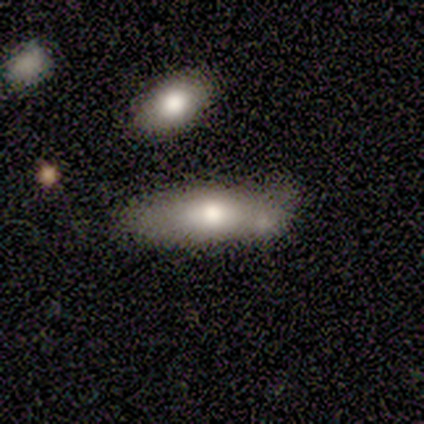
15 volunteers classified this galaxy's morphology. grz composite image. It shows a smooth galaxy with no disk features (67%) that is in between round and cigar-shaped (70%). Merging: none (53%).